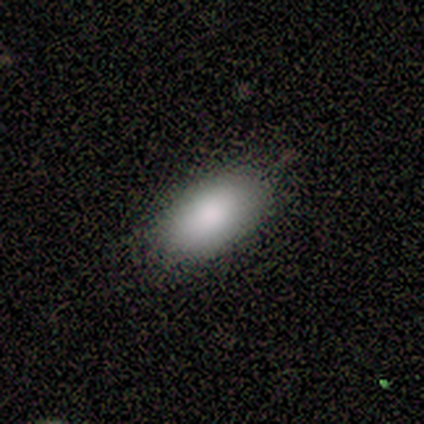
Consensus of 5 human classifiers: A smooth galaxy with no disk features (100%) that is in between round and cigar-shaped (100%). Merging: none (80%).